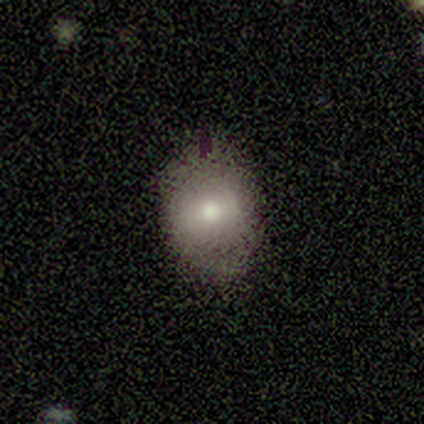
Overall: smooth (72%). How rounded: round (64%; in between 36%). Merging: none (86%).